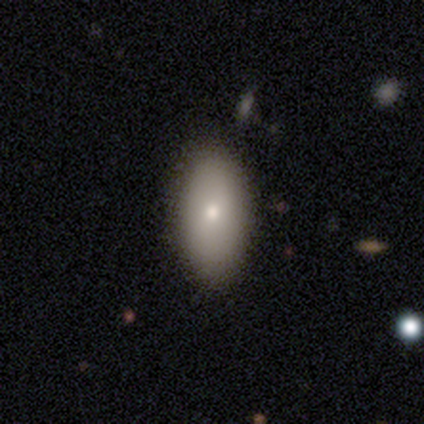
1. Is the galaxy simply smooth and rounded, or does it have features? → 100% smooth, 0% featured or disk, 0% star or artifact.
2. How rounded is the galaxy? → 100% in between, 0% round, 0% cigar-shaped.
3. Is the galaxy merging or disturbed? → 100% none, 0% minor disturbance, 0% major disturbance, 0% merger.